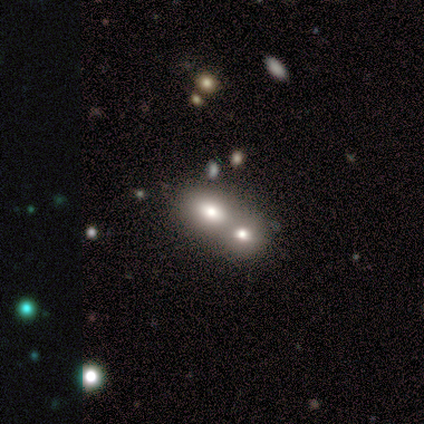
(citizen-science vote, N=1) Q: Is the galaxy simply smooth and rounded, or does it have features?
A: smooth — 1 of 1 (100%).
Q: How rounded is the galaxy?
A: in between — 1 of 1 (100%).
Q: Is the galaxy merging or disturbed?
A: merger — 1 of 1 (100%).